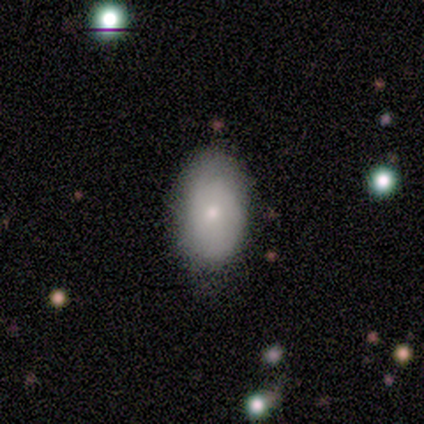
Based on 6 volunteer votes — Smooth or featured?
  - smooth: 83% *
  - featured or disk: 17%
  - star or artifact: 0%
How rounded?
  - in between: 100% *
  - round: 0%
  - cigar-shaped: 0%
Merging?
  - none: 67% *
  - minor disturbance: 33%
  - major disturbance: 0%
  - merger: 0%